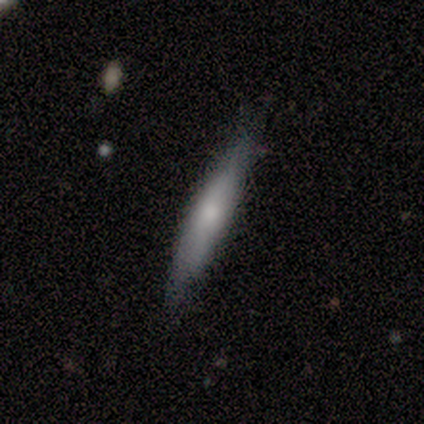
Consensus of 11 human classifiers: Smooth or featured?
  - featured or disk: 55% *
  - smooth: 45%
  - star or artifact: 0%
Edge-on disk?
  - yes: 100% *
  - no: 0%
Edge-on bulge?
  - none: 50% *
  - rounded: 33%
  - boxy: 17%
Merging?
  - none: 82% *
  - minor disturbance: 9%
  - major disturbance: 9%
  - merger: 0%